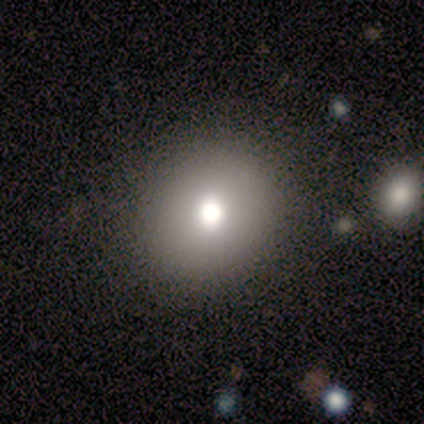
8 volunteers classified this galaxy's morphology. Overall: smooth (88%). How rounded: round (100%). Merging: none (62%; minor disturbance 25%).